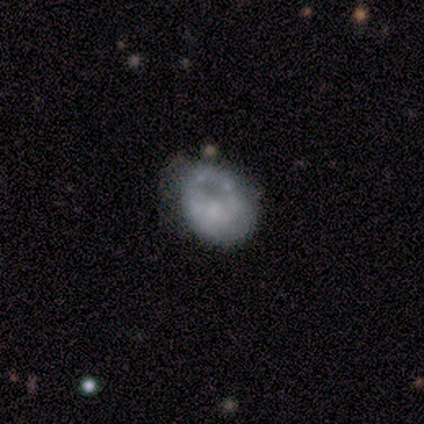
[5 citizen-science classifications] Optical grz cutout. It shows a smooth galaxy with no disk features (60%) that is in between round and cigar-shaped (67%). Merging: minor disturbance (60%).